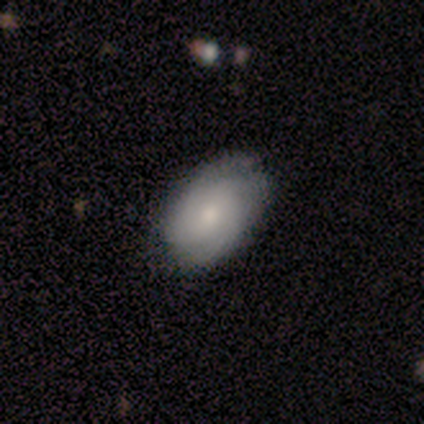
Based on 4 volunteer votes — Volunteers were most divided on "smooth or featured" (2-way tie): smooth: 50%, featured or disk: 50%, star or artifact: 0%. More confident: how rounded — in between (100%); merging — none (100%).